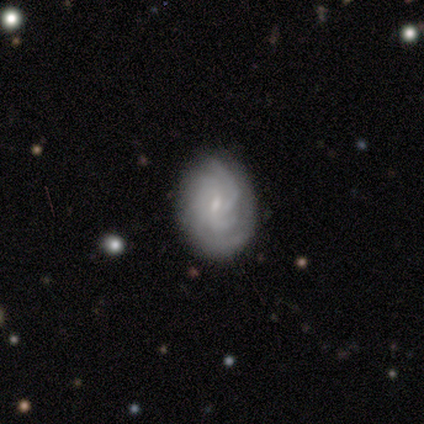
Smooth or featured?
  - featured or disk: 82% *
  - smooth: 18%
  - star or artifact: 0%
Edge-on disk?
  - no: 89% *
  - yes: 11%
Bar?
  - weak: 75% *
  - strong: 12%
  - no: 12%
Spiral arms?
  - yes: 88% *
  - no: 12%
Spiral winding?
  - medium: 100% *
  - tight: 0%
  - loose: 0%
Spiral arm count?
  - 4: 43% *
  - can't tell: 29%
  - 3: 14%
  - more than 4: 14%
  - 1: 0%
  - 2: 0%
Bulge size?
  - small: 75% *
  - moderate: 12%
  - none: 12%
  - dominant: 0%
  - large: 0%
Merging?
  - none: 64% *
  - minor disturbance: 18%
  - major disturbance: 9%
  - merger: 9%